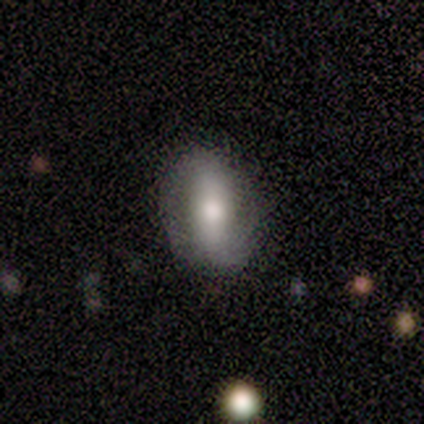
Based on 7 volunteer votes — Morphology: type=featured or disk (57%); edge-on=no (100%); bar=strong (50%); spiral arms=yes (75%); winding=tight (33%, tied with medium and loose); arm count=2 (67%); bulge=moderate (75%); merging=none (83%).